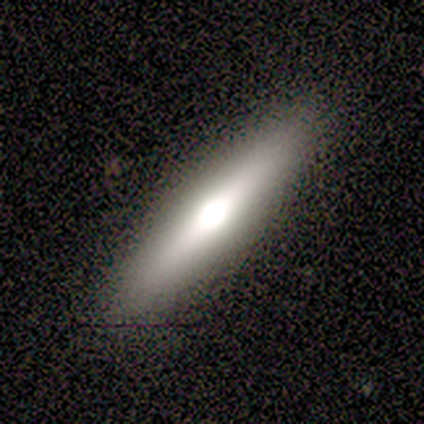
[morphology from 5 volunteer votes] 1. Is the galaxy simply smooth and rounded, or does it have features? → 60% smooth, 40% featured or disk, 0% star or artifact.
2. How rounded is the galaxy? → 100% cigar-shaped, 0% round, 0% in between.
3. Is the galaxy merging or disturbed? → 100% none, 0% minor disturbance, 0% major disturbance, 0% merger.